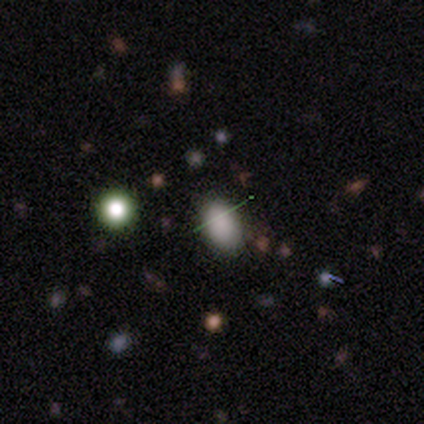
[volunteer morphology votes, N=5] smooth 40% (tied), star or artifact 40% (tied), featured or disk 20%. Down the decision tree: how rounded — in between (100%); merging — none (100%).